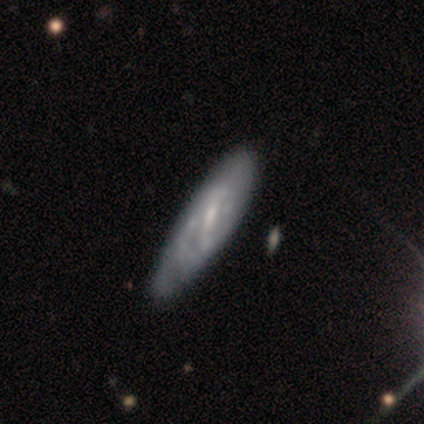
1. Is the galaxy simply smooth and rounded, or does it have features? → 60% featured or disk, 40% smooth, 0% star or artifact.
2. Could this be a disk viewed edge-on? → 75% no, 25% yes.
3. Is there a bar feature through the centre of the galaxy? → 61% weak, 28% no, 11% strong.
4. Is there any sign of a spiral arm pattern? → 72% yes, 28% no.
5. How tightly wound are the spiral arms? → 62% tight, 23% medium, 15% loose.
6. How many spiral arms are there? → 62% can't tell, 31% 2, 8% 3, 0% 1, 0% 4, 0% more than 4.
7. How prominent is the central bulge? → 56% moderate, 28% small, 17% none, 0% dominant, 0% large.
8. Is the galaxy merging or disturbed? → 40% minor disturbance, 38% none, 8% major disturbance, 2% merger.